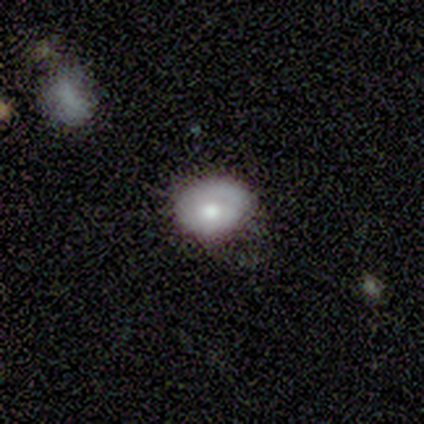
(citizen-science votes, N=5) smooth 100%, featured or disk 0%, star or artifact 0%. Down the decision tree: how rounded — in between (100%); merging — none (60%).